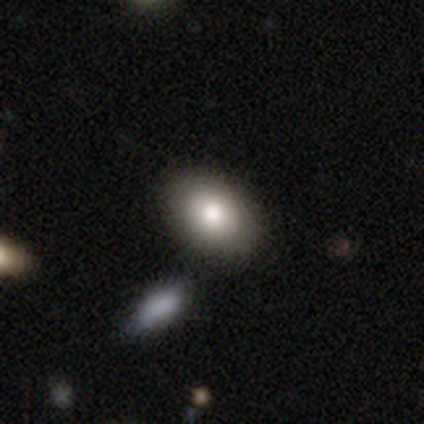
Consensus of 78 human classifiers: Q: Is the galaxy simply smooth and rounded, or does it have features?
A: smooth — 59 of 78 (76%).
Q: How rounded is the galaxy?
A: in between — 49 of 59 (83%).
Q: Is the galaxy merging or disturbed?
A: none — 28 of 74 (38%).